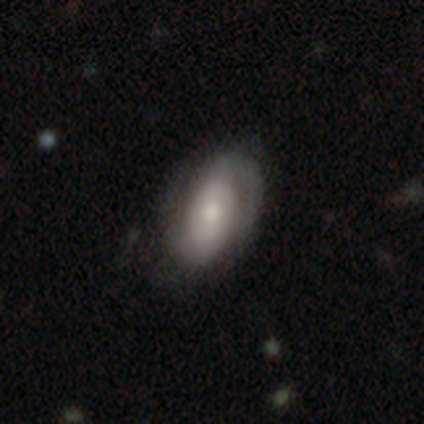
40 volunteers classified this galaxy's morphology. type=featured or disk (82%); edge-on=no (100%); bar=no (52%); spiral arms=yes (85%); winding=tight (50%); arm count=2 (75%); bulge=moderate (67%); merging=none (64%).